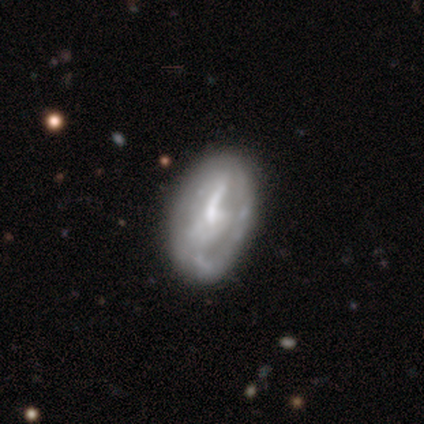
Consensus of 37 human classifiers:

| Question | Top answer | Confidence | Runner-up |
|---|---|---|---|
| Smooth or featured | featured or disk | 65% | smooth (24%) |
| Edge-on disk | no | 96% | yes (4%) |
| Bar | no | 43% | weak (35%) |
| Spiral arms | no | 57% | yes (43%) |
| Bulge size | small | 48% | none (35%) |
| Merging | none | 55% | minor disturbance (33%) |